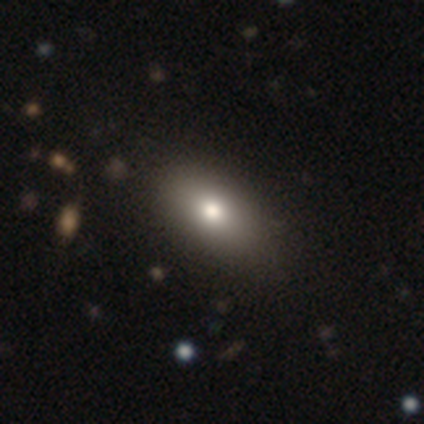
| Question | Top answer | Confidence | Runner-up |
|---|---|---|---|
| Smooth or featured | smooth | 85% | featured or disk (13%) |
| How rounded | in between | 88% | round (9%) |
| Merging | none | 82% | minor disturbance (3%) |